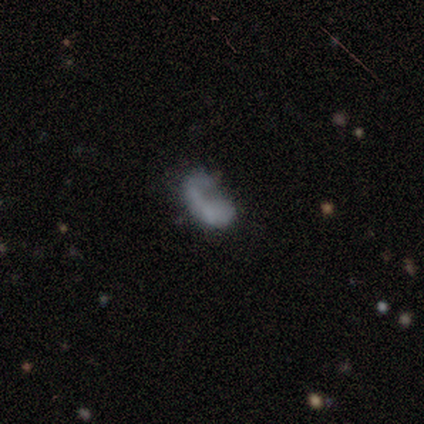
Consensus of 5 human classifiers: Smooth or featured: featured or disk — 60% (smooth — 20%)
Edge-on disk: no — 67% (yes — 33%)
Bar: no — 100%
Spiral arms: yes — 50% (tied with no — 50%)
Spiral winding: loose — 100%
Spiral arm count: 1 — 100%
Bulge size: none — 100%
Merging: none — 25% (tied with minor disturbance — 25%; major disturbance — 25%; merger — 25%)